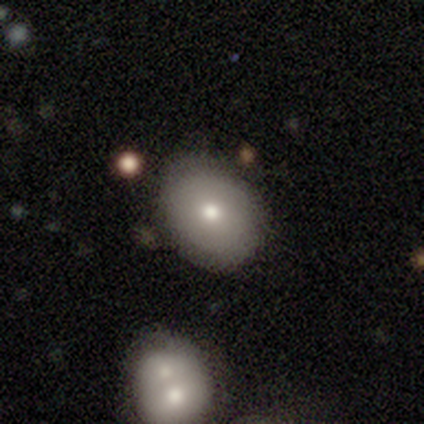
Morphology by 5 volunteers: Overall: smooth (80%). How rounded: round (75%). Merging: none (100%).